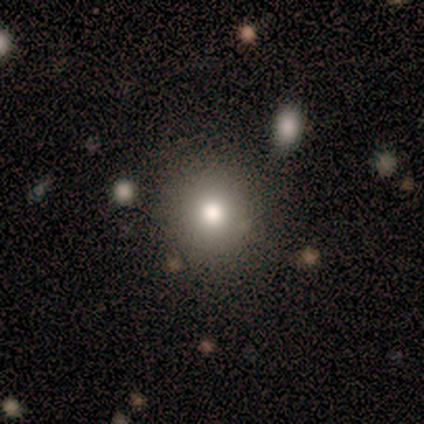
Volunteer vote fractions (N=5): Smooth or featured?
  - smooth: 100% *
  - featured or disk: 0%
  - star or artifact: 0%
How rounded?
  - round: 100% *
  - in between: 0%
  - cigar-shaped: 0%
Merging?
  - none: 100% *
  - minor disturbance: 0%
  - major disturbance: 0%
  - merger: 0%